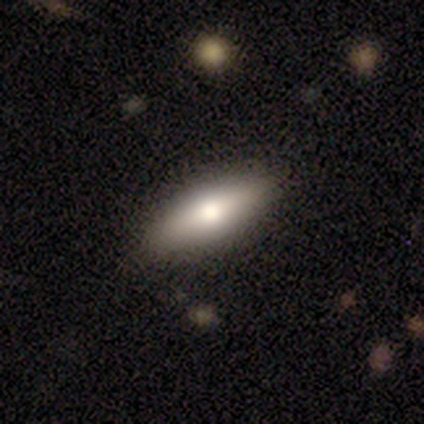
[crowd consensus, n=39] A smooth galaxy with no disk features (62%) that is in between round and cigar-shaped (67%). Merging: none (89%).